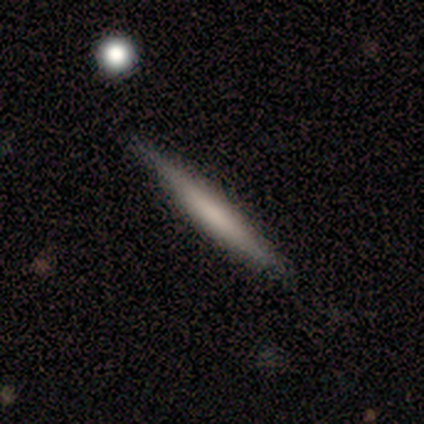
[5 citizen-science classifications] A featured or disk galaxy (60%) viewed edge-on (100%) with no central bulge (67%).

Vote fractions:
- Smooth or featured? featured or disk: 60% / smooth: 40% / star or artifact: 0%
- Edge-on disk? yes: 100% / no: 0%
- Edge-on bulge? none: 67% / boxy: 33% / rounded: 0%
- Merging? none: 100% / minor disturbance: 0% / major disturbance: 0% / merger: 0%